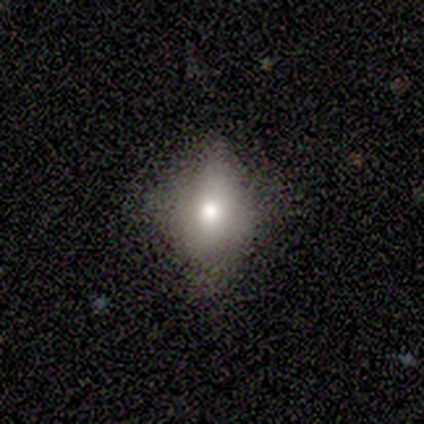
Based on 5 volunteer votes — A smooth galaxy with no disk features (40%, tied with featured or disk) that is in between round and cigar-shaped (100%).

Vote fractions:
- Smooth or featured? smooth: 40% (tied) / featured or disk: 40% (tied) / star or artifact: 20%
- How rounded? in between: 100% / round: 0% / cigar-shaped: 0%
- Merging? none: 75% / minor disturbance: 25% / major disturbance: 0% / merger: 0%